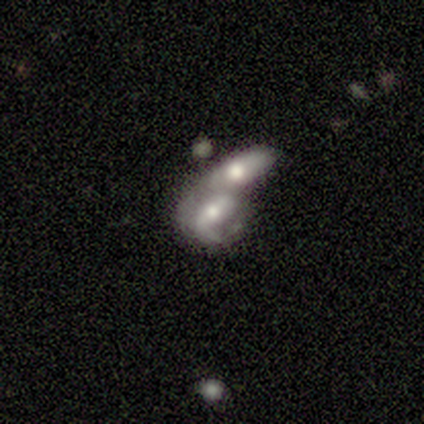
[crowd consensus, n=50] Smooth or featured? featured or disk (62%)
Edge-on disk? no (100%)
Bar? no (42%)
Spiral arms? yes (58%)
Spiral winding? loose (44%)
Spiral arm count? 1 (50%)
Bulge size? moderate (84%)
Merging? merger (90%)